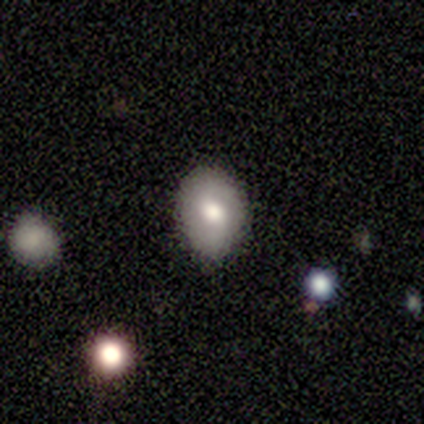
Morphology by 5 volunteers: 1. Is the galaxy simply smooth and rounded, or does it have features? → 80% smooth, 20% featured or disk, 0% star or artifact.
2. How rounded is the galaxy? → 100% in between, 0% round, 0% cigar-shaped.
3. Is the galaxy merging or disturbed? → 100% none, 0% minor disturbance, 0% major disturbance, 0% merger.